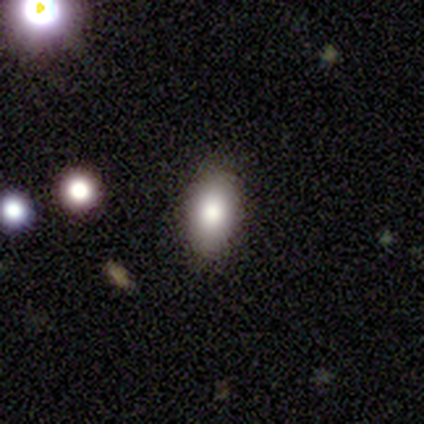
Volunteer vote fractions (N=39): Morphology: type=smooth (77%); roundness=in between (83%); merging=none (89%).